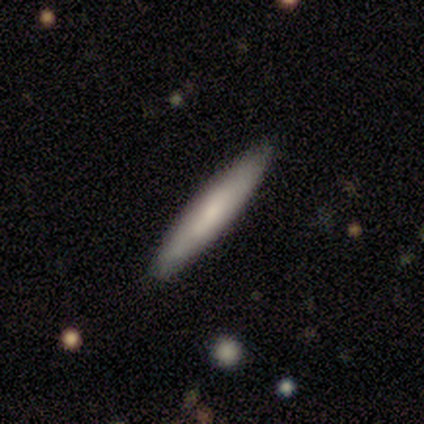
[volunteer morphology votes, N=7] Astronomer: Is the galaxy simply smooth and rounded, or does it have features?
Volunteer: featured or disk — 57% (runner-up: smooth, 43%).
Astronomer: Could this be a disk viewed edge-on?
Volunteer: yes — 75%.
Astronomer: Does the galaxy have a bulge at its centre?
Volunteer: none — 67%.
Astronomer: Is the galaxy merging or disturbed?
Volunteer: none — 86%.